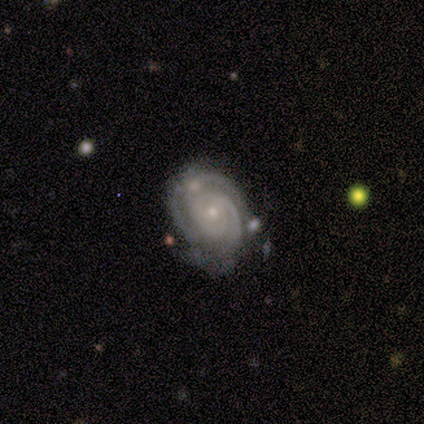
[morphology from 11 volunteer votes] smooth_or_featured: featured or disk (p=1.00)
disk_edge_on: no (p=0.91) [alt: yes p=0.09]
bar: no (p=0.90) [alt: weak p=0.10]
has_spiral_arms: yes (p=1.00)
spiral_winding: tight (p=0.90) [alt: medium p=0.10]
spiral_arm_count: 3 (p=0.40) [alt: 2 p=0.30]
bulge_size: small (p=0.90) [alt: moderate p=0.10]
merging: none (p=0.64) [alt: minor disturbance p=0.18]